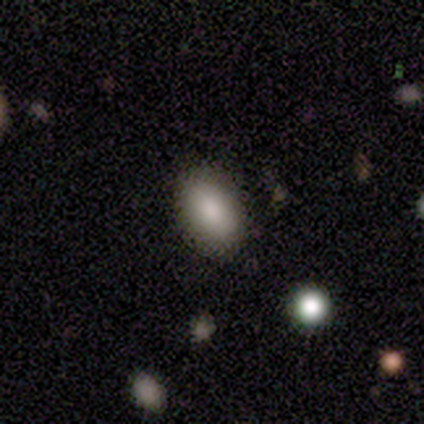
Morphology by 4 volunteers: smooth-or-featured: smooth: 75% | featured or disk: 25% | star or artifact: 0%
  how-rounded: in between: 100% | round: 0% | cigar-shaped: 0%
  merging: none: 100% | minor disturbance: 0% | major disturbance: 0% | merger: 0%